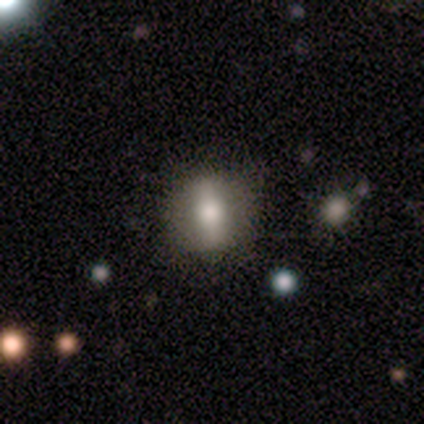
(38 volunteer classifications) Volunteers were most divided on "smooth or featured": smooth: 50%, featured or disk: 42%, star or artifact: 8%. More confident: how rounded — in between (53%); merging — none (51%).